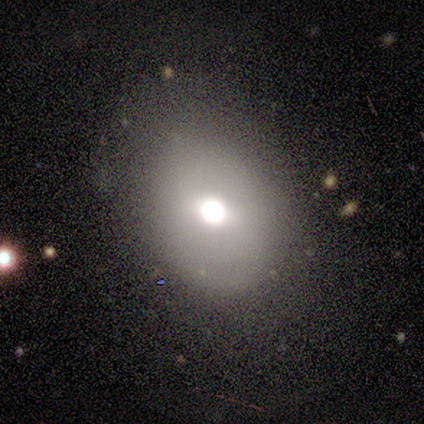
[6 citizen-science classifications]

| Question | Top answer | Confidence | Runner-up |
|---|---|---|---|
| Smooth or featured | smooth | 67% | featured or disk (33%) |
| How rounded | round | 50% | tied: in between (50%) |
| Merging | none | 50% | tied: minor disturbance (50%) |